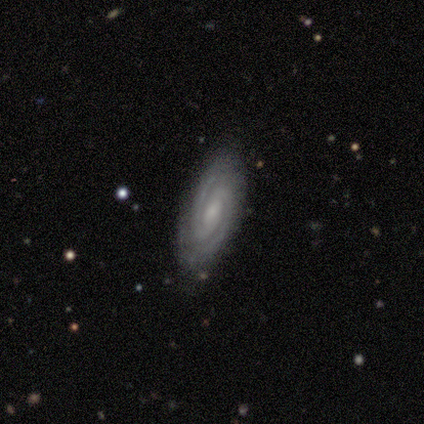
Morphology: type=featured or disk (89%); edge-on=no (100%); bar=weak (58%); spiral arms=yes (97%); winding=tight (75%); arm count=2 (78%); bulge=small (52%); merging=none (70%).